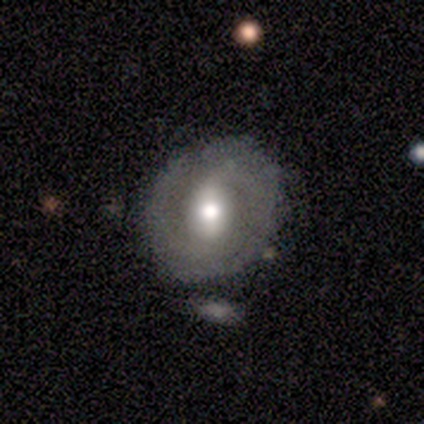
A featured or disk galaxy (57%) with a strong bar (75%), 2 (50%, tied with can't tell) medium (100%) spiral arms (50%, tied with no) and a moderate central bulge (50%). Merging: none (50%).